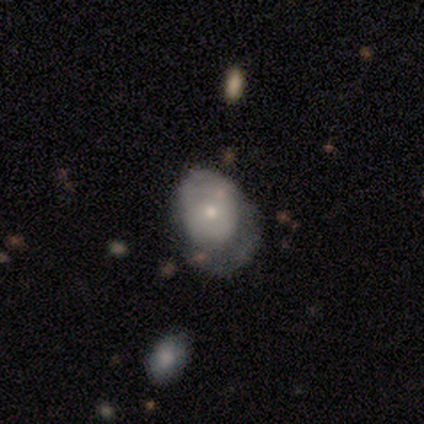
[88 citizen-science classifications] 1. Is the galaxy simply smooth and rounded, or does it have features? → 61% smooth, 34% featured or disk, 5% star or artifact.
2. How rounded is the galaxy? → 63% in between, 37% round, 0% cigar-shaped.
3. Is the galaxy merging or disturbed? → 43% major disturbance, 27% minor disturbance, 23% none, 7% merger.